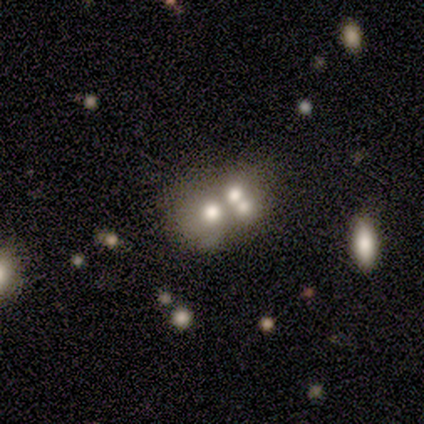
A smooth galaxy with no disk features (33%, tied with featured or disk and star or artifact) that is round (100%).

Vote fractions:
- Smooth or featured? smooth: 33% (tied) / featured or disk: 33% (tied) / star or artifact: 33% (tied)
- How rounded? round: 100% / in between: 0% / cigar-shaped: 0%
- Merging? merger: 100% / none: 0% / minor disturbance: 0% / major disturbance: 0%